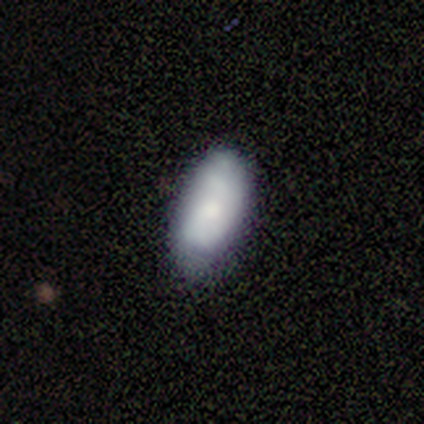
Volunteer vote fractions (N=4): Smooth or featured: smooth — 50% (tied with featured or disk — 50%)
How rounded: in between — 100%
Merging: major disturbance — 50% (none — 25%)